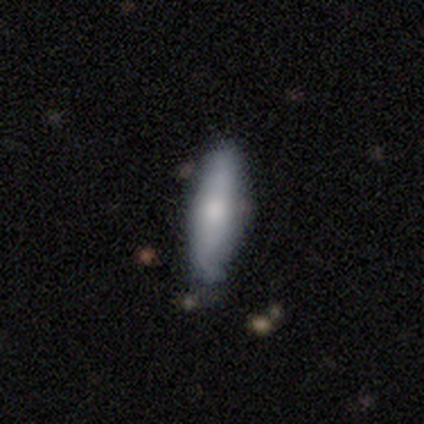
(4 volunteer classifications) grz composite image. It shows a smooth galaxy with no disk features (50%, tied with featured or disk) that is cigar-shaped (100%). Merging: none (75%).